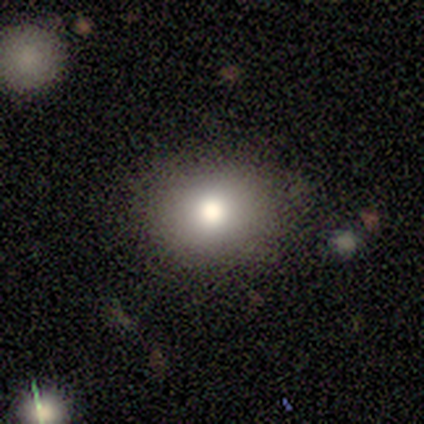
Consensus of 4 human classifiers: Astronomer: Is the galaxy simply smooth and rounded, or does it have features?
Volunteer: smooth — 75%.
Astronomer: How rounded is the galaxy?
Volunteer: round — 100%.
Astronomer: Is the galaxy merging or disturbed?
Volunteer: none — 67%.